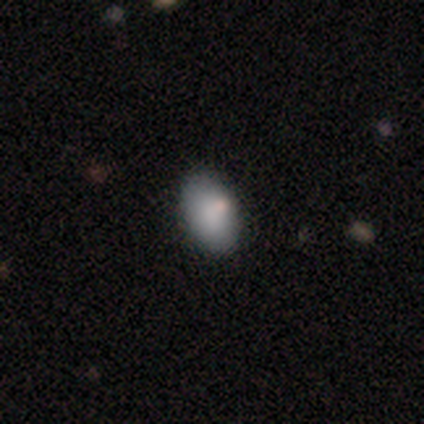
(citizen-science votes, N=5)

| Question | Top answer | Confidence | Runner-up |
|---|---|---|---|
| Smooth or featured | smooth | 80% | star or artifact (20%) |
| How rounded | in between | 100% | — |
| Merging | none | 100% | — |